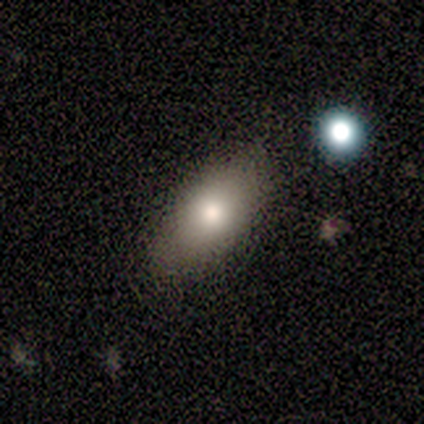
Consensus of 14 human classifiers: Smooth or featured: smooth — 57% (featured or disk — 21%)
How rounded: in between — 100%
Merging: none — 82% (minor disturbance — 18%)